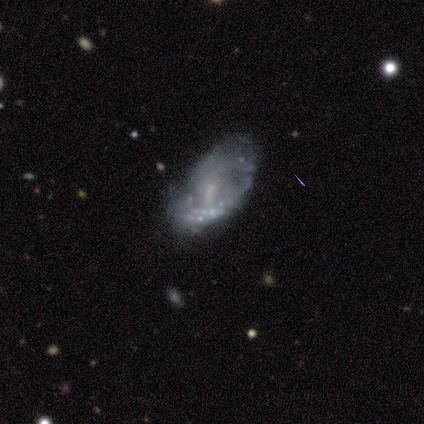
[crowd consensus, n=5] smooth_or_featured: featured or disk (p=0.80) [alt: star or artifact p=0.20]
disk_edge_on: no (p=1.00)
bar: weak (p=0.50) [tied with: no p=0.50]
has_spiral_arms: yes (p=0.50) [tied with: no p=0.50]
spiral_winding: medium (p=1.00)
spiral_arm_count: 2 (p=1.00)
bulge_size: small (p=1.00)
merging: major disturbance (p=0.50) [alt: none p=0.25]